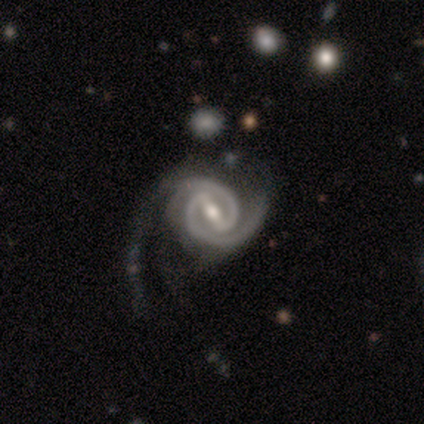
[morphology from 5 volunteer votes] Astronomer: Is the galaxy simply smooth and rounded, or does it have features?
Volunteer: featured or disk — 100%.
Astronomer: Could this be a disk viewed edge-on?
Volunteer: no — 80%.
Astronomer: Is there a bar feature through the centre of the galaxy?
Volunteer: strong — 50%, tied with weak at 50%.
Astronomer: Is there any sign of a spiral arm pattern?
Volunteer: yes — 100%.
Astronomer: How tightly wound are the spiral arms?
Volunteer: tight — 75%.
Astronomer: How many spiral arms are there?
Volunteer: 2 — 100%.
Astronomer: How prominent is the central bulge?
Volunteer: moderate — 75%.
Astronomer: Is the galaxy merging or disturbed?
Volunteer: none — 80%.